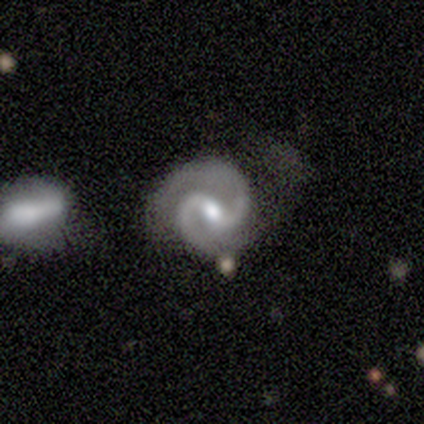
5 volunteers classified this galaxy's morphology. Smooth or featured?
  - featured or disk: 100% *
  - smooth: 0%
  - star or artifact: 0%
Edge-on disk?
  - no: 100% *
  - yes: 0%
Bar?
  - weak: 80% *
  - strong: 20%
  - no: 0%
Spiral arms?
  - yes: 100% *
  - no: 0%
Spiral winding?
  - medium: 60% *
  - tight: 40%
  - loose: 0%
Spiral arm count?
  - 2: 100% *
  - 1: 0%
  - 3: 0%
  - 4: 0%
  - more than 4: 0%
  - can't tell: 0%
Bulge size?
  - moderate: 80% *
  - small: 20%
  - dominant: 0%
  - large: 0%
  - none: 0%
Merging?
  - none: 80% *
  - major disturbance: 20%
  - minor disturbance: 0%
  - merger: 0%